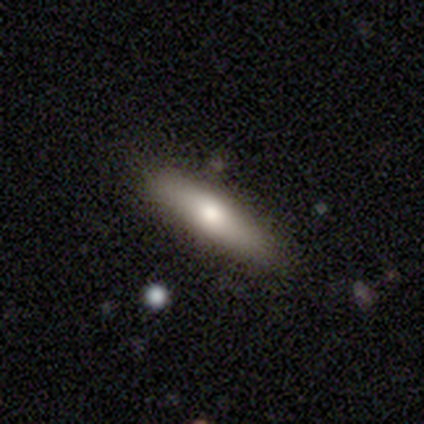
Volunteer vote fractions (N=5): smooth-or-featured: smooth: 100% | featured or disk: 0% | star or artifact: 0%
  how-rounded: in between: 60% | round: 20% | cigar-shaped: 20%
  merging: none: 60% | minor disturbance: 20% | merger: 20% | major disturbance: 0%